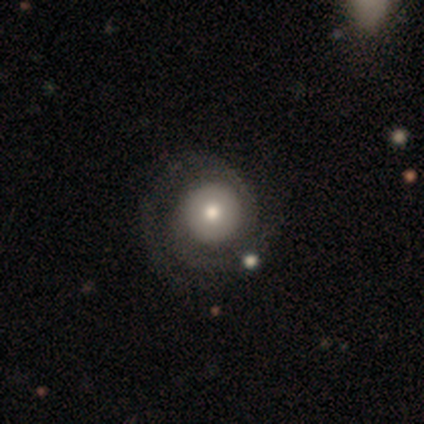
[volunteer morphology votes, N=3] Smooth or featured? featured or disk (67%)
Edge-on disk? no (100%)
Bar? no (100%)
Spiral arms? yes (100%)
Spiral winding? tight (50%, tied with loose)
Spiral arm count? 2 (50%, tied with can't tell)
Bulge size? moderate (100%)
Merging? none (67%)